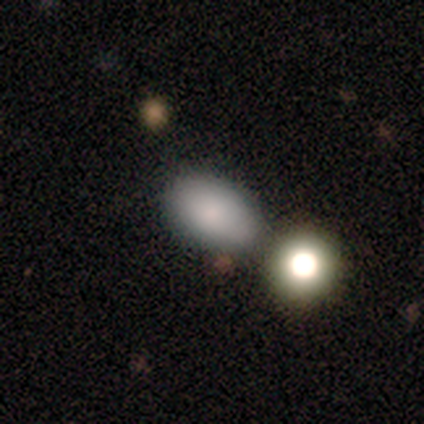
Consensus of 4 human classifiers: Volunteers were most divided on "how rounded": in between: 67%, round: 33%, cigar-shaped: 0%. More confident: merging — none (100%); smooth or featured — smooth (75%).